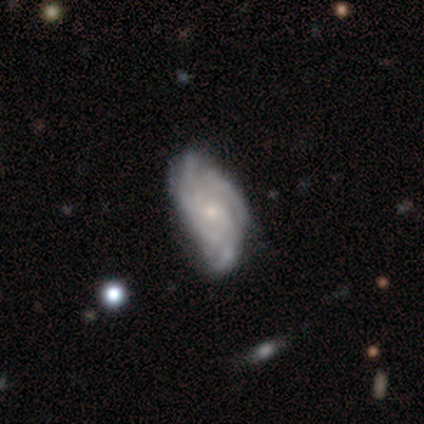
Smooth or featured? featured or disk (100%)
Edge-on disk? no (100%)
Bar? no (78%)
Spiral arms? yes (100%)
Spiral winding? tight (56%)
Spiral arm count? can't tell (56%)
Bulge size? small (78%)
Merging? none (44%, tied with minor disturbance)